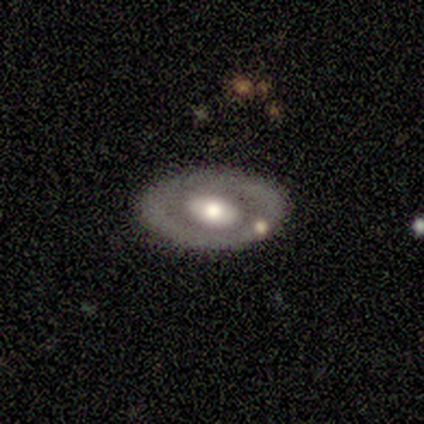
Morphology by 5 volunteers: type=featured or disk (100%); edge-on=no (80%); bar=no (100%); spiral arms=no (100%); bulge=large (50%, tied with moderate); merging=none (60%).